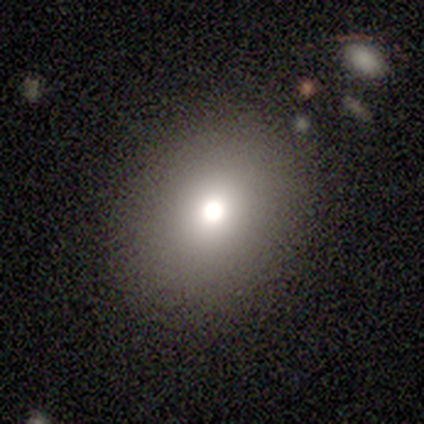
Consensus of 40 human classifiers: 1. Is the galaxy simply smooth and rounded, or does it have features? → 80% smooth, 12% star or artifact, 8% featured or disk.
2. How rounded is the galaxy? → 56% round, 44% in between, 0% cigar-shaped.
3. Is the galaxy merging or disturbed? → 91% none, 3% minor disturbance, 3% major disturbance, 3% merger.